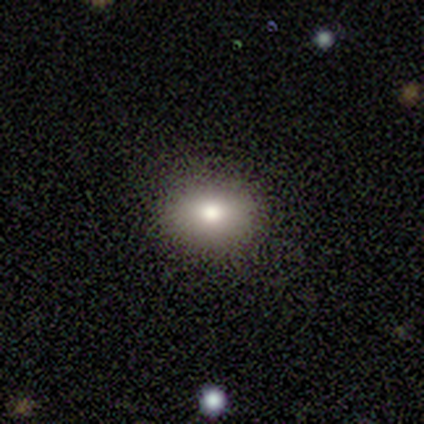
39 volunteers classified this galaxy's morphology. Smooth or featured: smooth — 79% (star or artifact — 18%)
How rounded: round — 55% (in between — 45%)
Merging: none — 91% (minor disturbance — 3%)